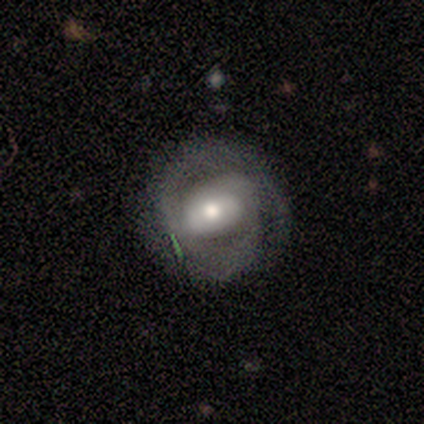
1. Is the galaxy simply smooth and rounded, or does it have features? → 61% featured or disk, 37% smooth, 2% star or artifact.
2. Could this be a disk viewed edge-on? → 97% no, 3% yes.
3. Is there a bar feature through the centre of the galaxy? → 45% no, 31% strong, 24% weak.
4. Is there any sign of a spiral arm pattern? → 76% yes, 24% no.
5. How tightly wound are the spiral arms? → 59% tight, 41% medium, 0% loose.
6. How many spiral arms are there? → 77% 2, 9% 1, 9% can't tell, 5% 3, 0% 4, 0% more than 4.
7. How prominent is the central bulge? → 41% moderate, 34% large, 21% small, 3% none, 0% dominant.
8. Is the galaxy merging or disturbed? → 71% none, 19% minor disturbance, 8% major disturbance, 2% merger.